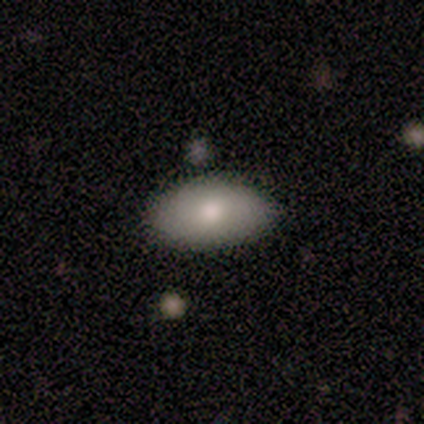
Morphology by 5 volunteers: Overall: smooth (100%). How rounded: in between (100%). Merging: none (100%).